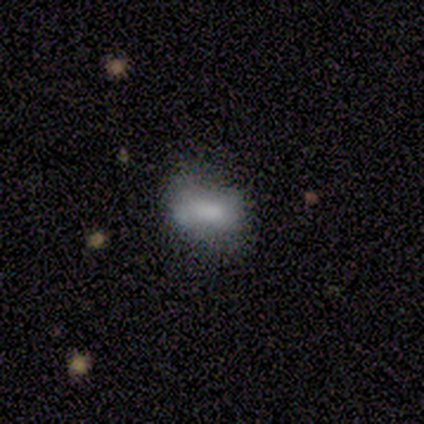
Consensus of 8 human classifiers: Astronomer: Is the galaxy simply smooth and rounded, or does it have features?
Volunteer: smooth — 75%.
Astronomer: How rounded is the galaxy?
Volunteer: in between — 100%.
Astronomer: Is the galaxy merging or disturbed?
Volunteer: none — 50%, tied with minor disturbance at 50%.